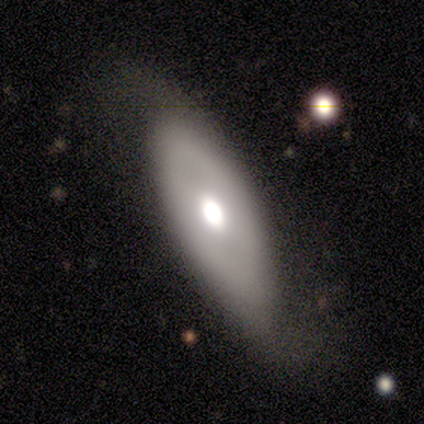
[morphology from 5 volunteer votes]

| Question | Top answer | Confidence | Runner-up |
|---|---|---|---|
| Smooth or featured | smooth | 80% | featured or disk (20%) |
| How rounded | in between | 100% | — |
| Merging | none | 40% | tied: major disturbance (40%) |